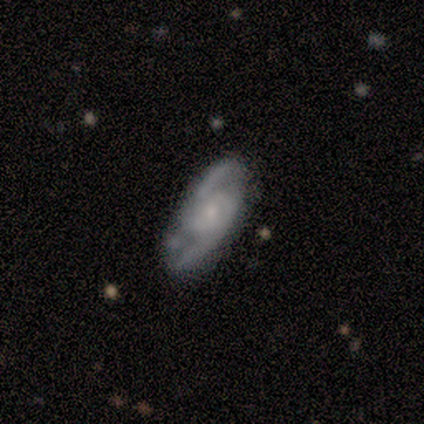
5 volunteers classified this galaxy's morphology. This appears to be a featured or disk galaxy (100%) with a weak bar (80%), 2 (80%) tight (40%, tied with medium) spiral arms (100%) and a small central bulge (80%). Merging: none (60%).